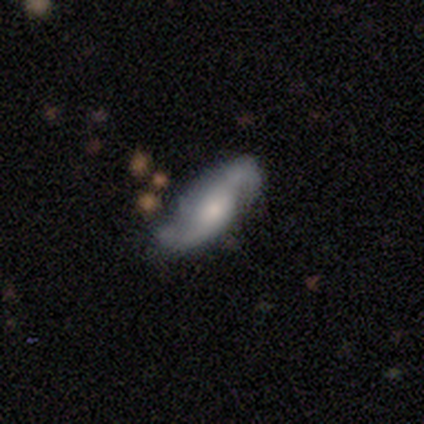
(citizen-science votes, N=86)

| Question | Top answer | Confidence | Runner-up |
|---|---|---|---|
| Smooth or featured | featured or disk | 80% | smooth (13%) |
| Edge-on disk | no | 90% | yes (10%) |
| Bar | no | 53% | weak (40%) |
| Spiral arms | yes | 95% | no (5%) |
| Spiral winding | loose | 64% | medium (22%) |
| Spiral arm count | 2 | 93% | can't tell (7%) |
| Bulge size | small | 44% | moderate (42%) |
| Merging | none | 70% | minor disturbance (21%) |